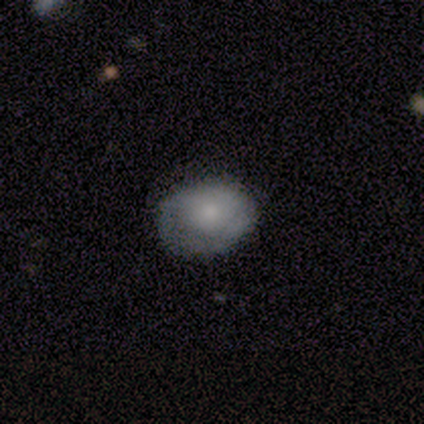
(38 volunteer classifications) Volunteers were most divided on "how rounded" (2-way tie): round: 50%, in between: 50%, cigar-shaped: 0%. More confident: smooth or featured — smooth (68%); merging — none (65%).